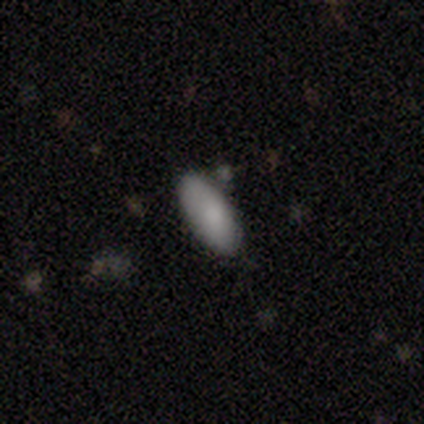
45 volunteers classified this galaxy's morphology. type=smooth (89%); roundness=in between (90%); merging=none (74%).